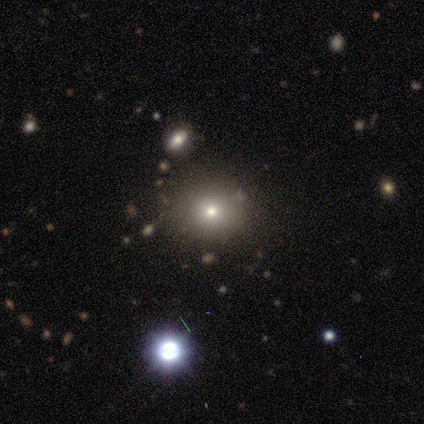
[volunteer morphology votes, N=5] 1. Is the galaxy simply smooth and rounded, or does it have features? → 60% smooth, 20% featured or disk, 20% star or artifact.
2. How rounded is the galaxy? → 67% round, 33% in between, 0% cigar-shaped.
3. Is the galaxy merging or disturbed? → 100% none, 0% minor disturbance, 0% major disturbance, 0% merger.